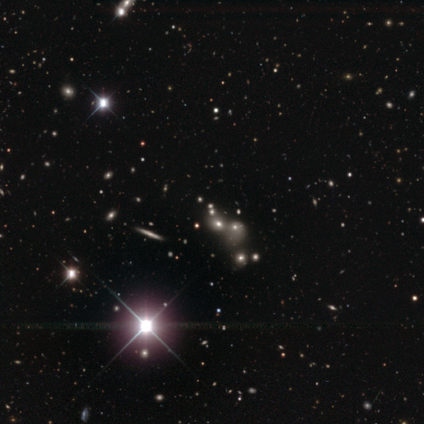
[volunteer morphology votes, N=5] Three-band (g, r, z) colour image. It shows a smooth galaxy with no disk features (60%) that is round (67%). Merging: none (33%, tied with major disturbance and merger).